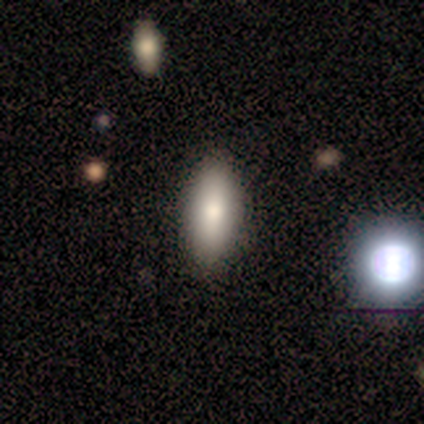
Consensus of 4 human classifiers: smooth 100%, featured or disk 0%, star or artifact 0%. Down the decision tree: how rounded — in between (100%); merging — none (75%).